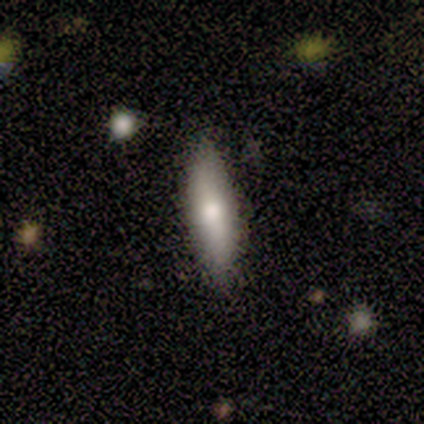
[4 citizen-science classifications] Smooth or featured? smooth (50%, tied with featured or disk)
How rounded? in between (50%, tied with cigar-shaped)
Merging? none (50%, tied with minor disturbance)